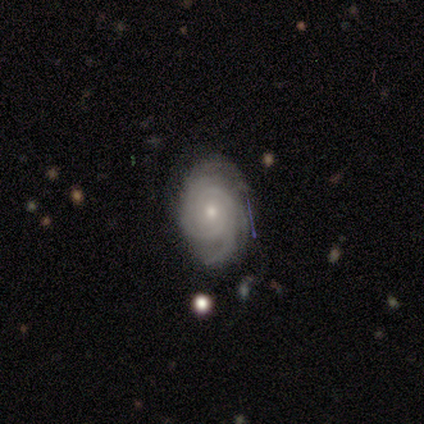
smooth_or_featured: featured or disk (p=0.85) [alt: smooth p=0.15]
disk_edge_on: no (p=0.91) [alt: yes p=0.09]
bar: no (p=0.90) [alt: weak p=0.10]
has_spiral_arms: yes (p=1.00)
spiral_winding: tight (p=0.90) [alt: medium p=0.10]
spiral_arm_count: 3 (p=0.40) [alt: can't tell p=0.30]
bulge_size: small (p=0.50) [alt: moderate p=0.40]
merging: none (p=0.85) [alt: minor disturbance p=0.08]